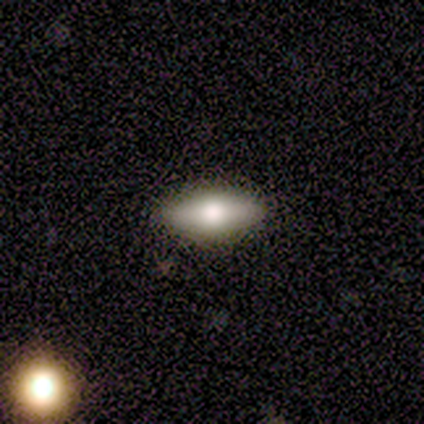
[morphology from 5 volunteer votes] Smooth or featured? 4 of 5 (80%) said smooth. How rounded? 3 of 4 (75%) said in between. Merging? 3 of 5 (60%) said none.